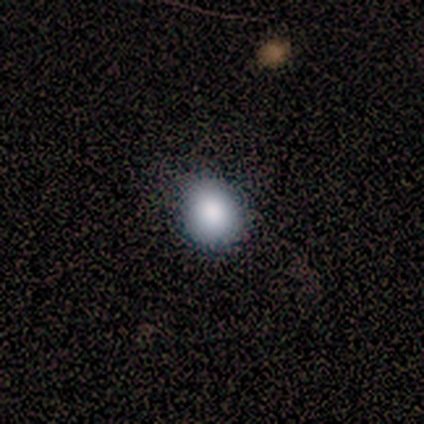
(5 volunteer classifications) Q: Smooth or featured?
A: smooth (80%); runner-up: star or artifact (20%)
Q: How rounded?
A: round (75%); runner-up: in between (25%)
Q: Merging?
A: none (100%)